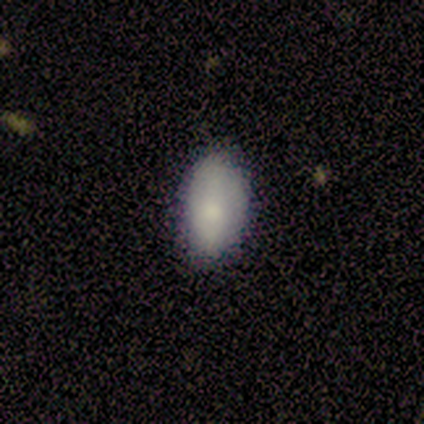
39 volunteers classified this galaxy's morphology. A smooth galaxy with no disk features (82%) that is in between round and cigar-shaped (91%).

Vote fractions:
- Smooth or featured? smooth: 82% / star or artifact: 10% / featured or disk: 8%
- How rounded? in between: 91% / round: 6% / cigar-shaped: 3%
- Merging? none: 77% / minor disturbance: 23% / major disturbance: 0% / merger: 0%